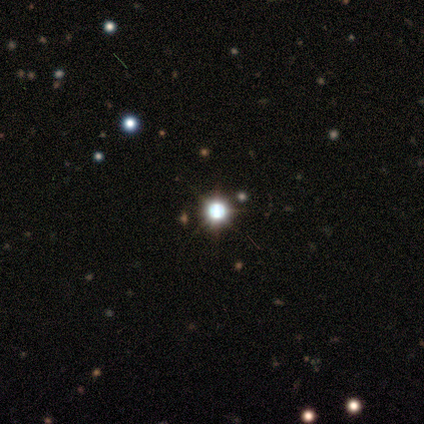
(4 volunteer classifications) Smooth or featured?
  - star or artifact: 75% *
  - smooth: 25%
  - featured or disk: 0%